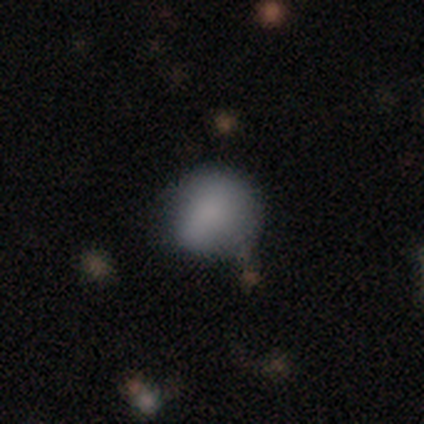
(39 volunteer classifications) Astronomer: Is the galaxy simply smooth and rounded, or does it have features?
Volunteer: smooth — 79%.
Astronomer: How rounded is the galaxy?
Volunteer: round — 77%.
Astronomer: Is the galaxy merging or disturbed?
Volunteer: none — 63%.